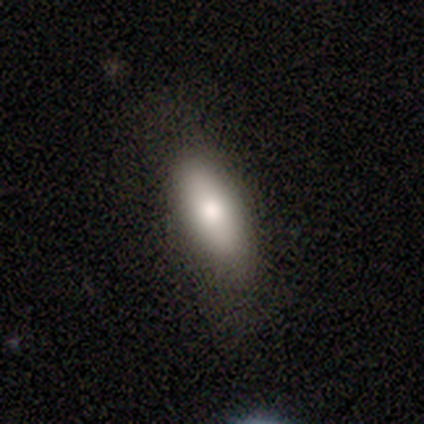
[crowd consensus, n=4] Smooth or featured: smooth — 100%
How rounded: in between — 75% (cigar-shaped — 25%)
Merging: none — 100%